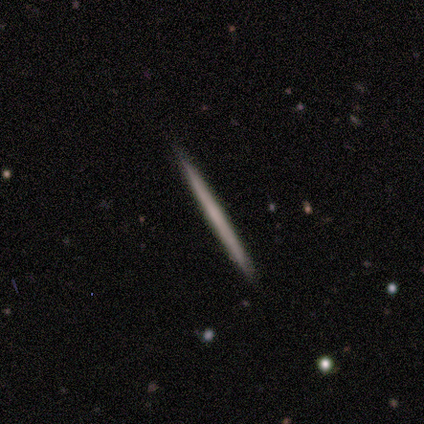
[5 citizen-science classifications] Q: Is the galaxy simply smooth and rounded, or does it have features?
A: featured or disk — 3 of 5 (60%).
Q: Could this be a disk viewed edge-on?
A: yes — 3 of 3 (100%).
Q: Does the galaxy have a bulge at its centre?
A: none — 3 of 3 (100%).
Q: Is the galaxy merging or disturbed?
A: none — 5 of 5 (100%).